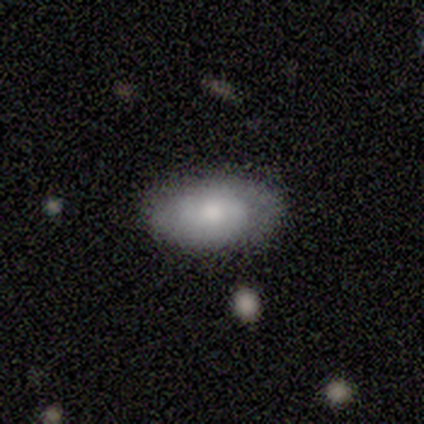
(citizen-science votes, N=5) A smooth galaxy with no disk features (60%) that is in between round and cigar-shaped (100%).

Vote fractions:
- Smooth or featured? smooth: 60% / featured or disk: 40% / star or artifact: 0%
- How rounded? in between: 100% / round: 0% / cigar-shaped: 0%
- Merging? none: 100% / minor disturbance: 0% / major disturbance: 0% / merger: 0%